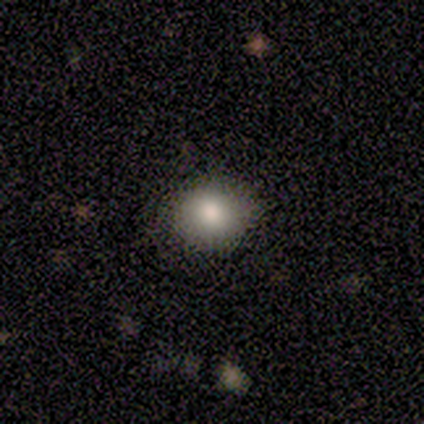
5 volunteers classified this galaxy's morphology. smooth 80%, featured or disk 20%, star or artifact 0%. Down the decision tree: how rounded — round (75%); merging — none (100%).